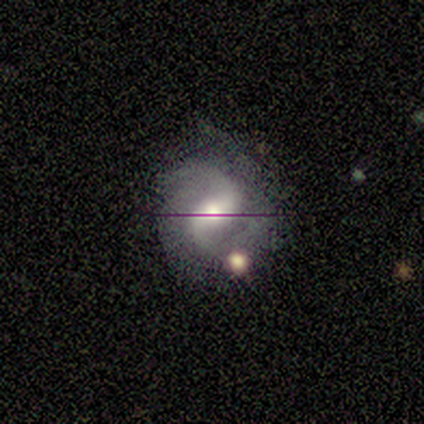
Volunteers were most divided on "spiral winding": medium: 62%, loose: 38%, tight: 0%. More confident: edge-on disk — no (100%); spiral arms — yes (100%); smooth or featured — featured or disk (89%); spiral arm count — 2 (75%); merging — none (75%); bar — weak (75%); bulge size — moderate (62%).